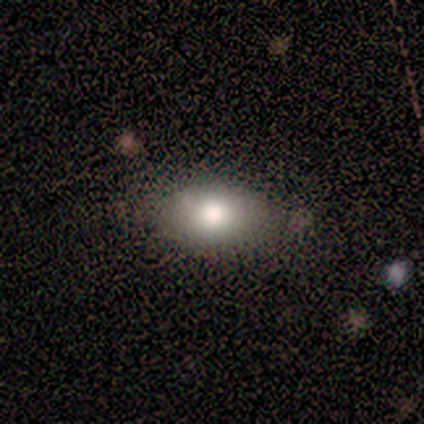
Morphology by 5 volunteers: This appears to be a smooth galaxy with no disk features (80%) that is round (50%). Merging: none (40%).